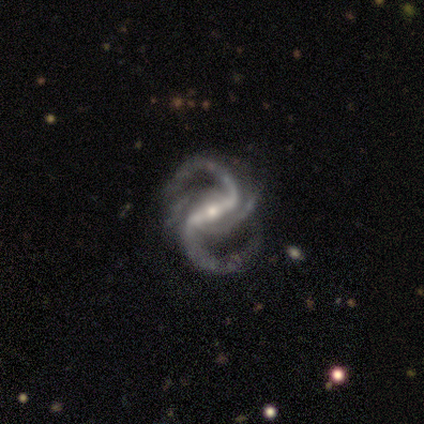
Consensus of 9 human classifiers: Smooth or featured: featured or disk — 100%
Edge-on disk: no — 100%
Bar: strong — 67% (weak — 33%)
Spiral arms: yes — 100%
Spiral winding: medium — 56% (loose — 44%)
Spiral arm count: 2 — 56% (3 — 33%)
Bulge size: small — 67% (moderate — 33%)
Merging: none — 100%